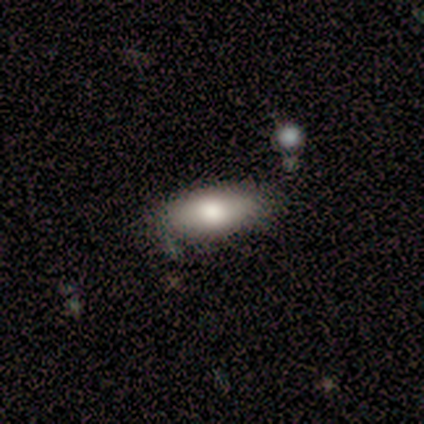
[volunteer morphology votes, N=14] Smooth or featured: smooth — 86% (featured or disk — 14%)
How rounded: in between — 100%
Merging: none — 86% (minor disturbance — 14%)